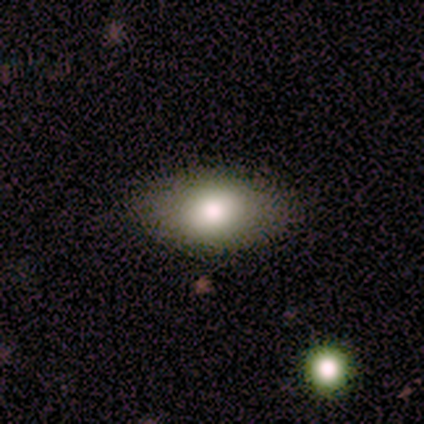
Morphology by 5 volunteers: Smooth or featured? smooth (100%)
How rounded? in between (100%)
Merging? none (80%)